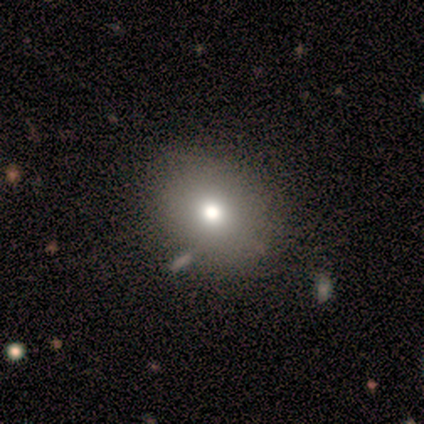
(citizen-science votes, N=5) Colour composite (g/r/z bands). It shows a smooth galaxy with no disk features (80%) that is in between round and cigar-shaped (75%). Merging: none (100%).